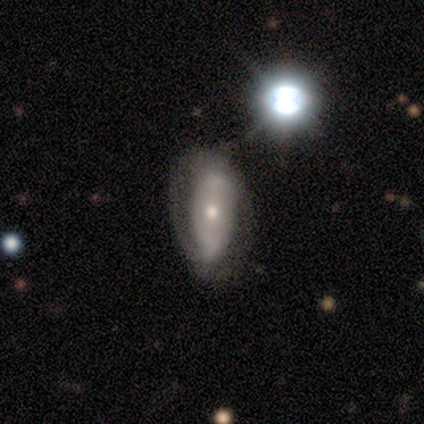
This is marginally a smooth galaxy (40%, tied with featured or disk). How rounded: possibly in between (50%, tied with cigar-shaped). Merging: possibly none (50%).